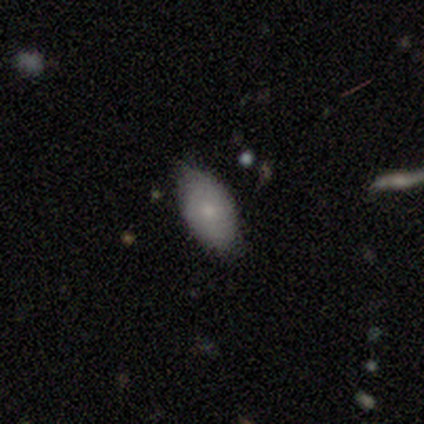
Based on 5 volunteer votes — A smooth galaxy with no disk features (80%) that is in between round and cigar-shaped (75%).

Vote fractions:
- Smooth or featured? smooth: 80% / featured or disk: 20% / star or artifact: 0%
- How rounded? in between: 75% / cigar-shaped: 25% / round: 0%
- Merging? none: 40% (tied) / minor disturbance: 40% (tied) / merger: 20% / major disturbance: 0%